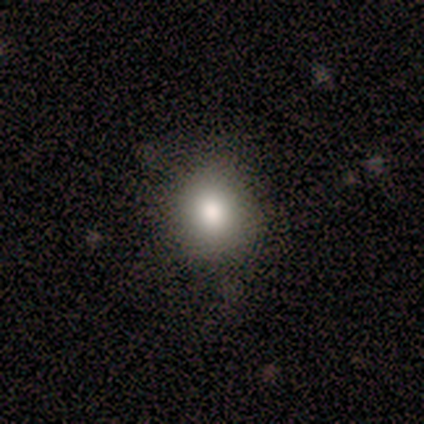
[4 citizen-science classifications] A smooth galaxy with no disk features (100%) that is round (75%).

Vote fractions:
- Smooth or featured? smooth: 100% / featured or disk: 0% / star or artifact: 0%
- How rounded? round: 75% / in between: 25% / cigar-shaped: 0%
- Merging? none: 100% / minor disturbance: 0% / major disturbance: 0% / merger: 0%